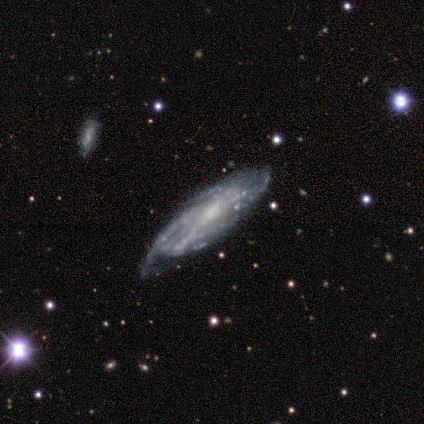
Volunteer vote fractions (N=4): Smooth or featured? 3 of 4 (75%) said featured or disk. Edge-on disk? 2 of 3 (67%) said no. Bar? 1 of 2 (50%, tied with no) said weak. Spiral arms? 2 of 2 (100%) said yes. Spiral winding? 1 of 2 (50%, tied with medium) said tight. Spiral arm count? 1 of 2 (50%, tied with can't tell) said 4. Bulge size? 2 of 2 (100%) said small. Merging? 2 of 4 (50%) said none.